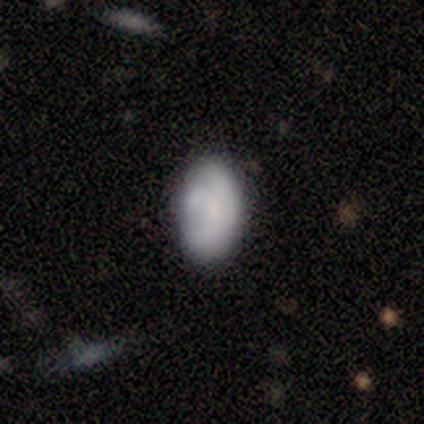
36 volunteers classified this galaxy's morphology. Q: Smooth or featured?
A: smooth (78%); runner-up: featured or disk (19%)
Q: How rounded?
A: in between (93%); runner-up: round (4%)
Q: Merging?
A: none (49%); runner-up: minor disturbance (34%)